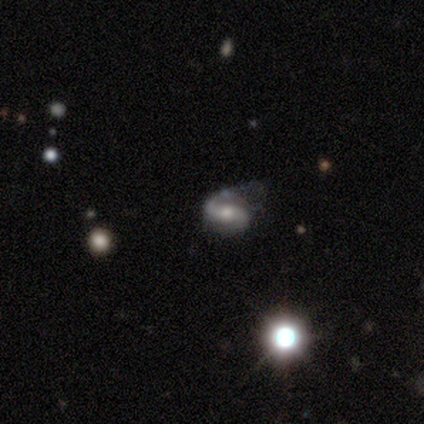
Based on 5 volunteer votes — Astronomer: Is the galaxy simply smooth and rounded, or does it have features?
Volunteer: featured or disk — 80%.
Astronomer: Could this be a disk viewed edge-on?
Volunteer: no — 100%.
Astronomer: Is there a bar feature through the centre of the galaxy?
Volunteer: no — 75%.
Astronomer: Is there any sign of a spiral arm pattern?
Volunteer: yes — 100%.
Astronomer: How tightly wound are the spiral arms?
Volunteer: medium — 100%.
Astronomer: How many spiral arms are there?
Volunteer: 2 — 100%.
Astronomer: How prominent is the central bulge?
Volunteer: moderate — 100%.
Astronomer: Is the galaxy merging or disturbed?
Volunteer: none — 25%, tied with minor disturbance, major disturbance and merger at 25%.